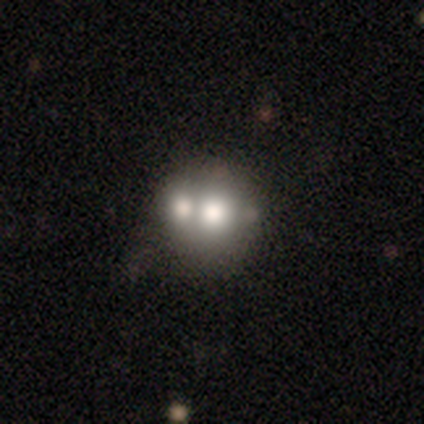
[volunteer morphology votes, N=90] Overall: smooth (54%; featured or disk 36%). How rounded: round (76%). Merging: merger (57%; none 31%).